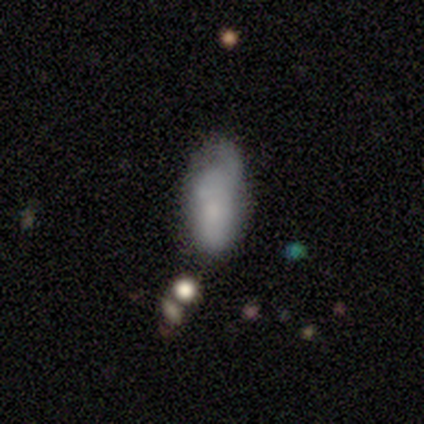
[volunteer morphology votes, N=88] Smooth or featured? 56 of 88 (64%) said smooth. How rounded? 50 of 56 (89%) said in between. Merging? 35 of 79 (44%) said minor disturbance.